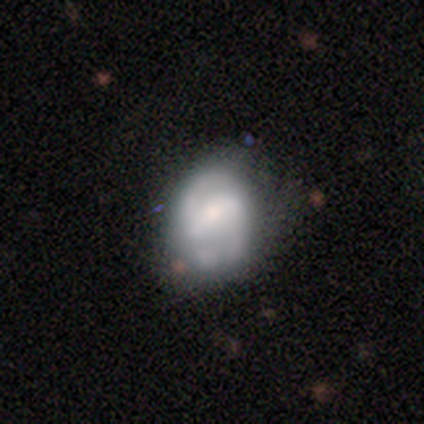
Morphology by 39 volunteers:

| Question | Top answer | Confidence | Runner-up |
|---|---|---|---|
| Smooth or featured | featured or disk | 69% | smooth (23%) |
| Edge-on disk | no | 96% | yes (4%) |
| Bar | weak | 46% | strong (27%) |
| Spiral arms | yes | 77% | no (23%) |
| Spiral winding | medium | 55% | tight (25%) |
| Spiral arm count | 2 | 95% | can't tell (5%) |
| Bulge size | small | 42% | moderate (31%) |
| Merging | none | 56% | minor disturbance (19%) |